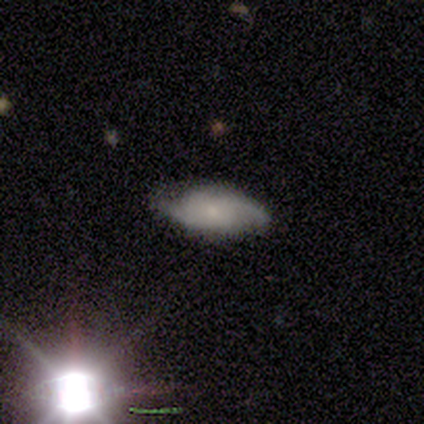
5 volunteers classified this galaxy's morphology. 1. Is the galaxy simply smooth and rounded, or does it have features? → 60% featured or disk, 40% smooth, 0% star or artifact.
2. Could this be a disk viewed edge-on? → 100% no, 0% yes.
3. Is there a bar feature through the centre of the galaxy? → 67% no, 33% weak, 0% strong.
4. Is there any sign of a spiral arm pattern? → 100% yes, 0% no.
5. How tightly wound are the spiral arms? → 100% tight, 0% medium, 0% loose.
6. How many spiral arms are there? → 100% 2, 0% 1, 0% 3, 0% 4, 0% more than 4, 0% can't tell.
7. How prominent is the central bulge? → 67% small, 33% moderate, 0% dominant, 0% large, 0% none.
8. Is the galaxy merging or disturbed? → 60% none, 40% minor disturbance, 0% major disturbance, 0% merger.